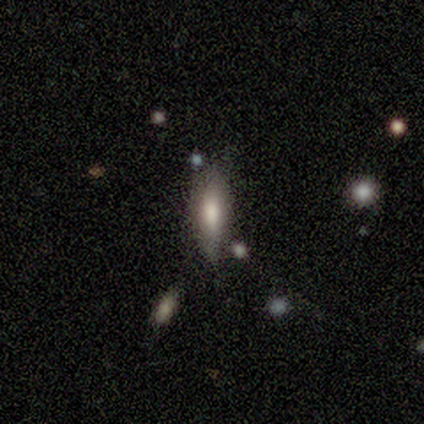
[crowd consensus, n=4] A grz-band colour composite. It shows a smooth galaxy with no disk features (100%) that is in between round and cigar-shaped (75%). Merging: minor disturbance (75%).